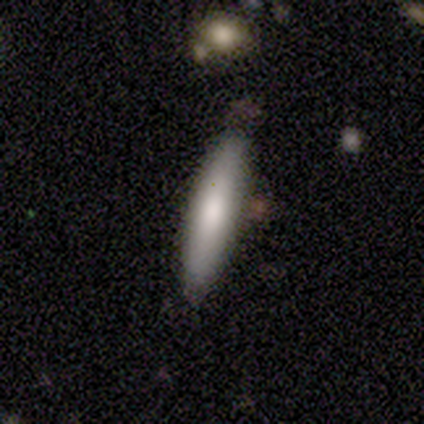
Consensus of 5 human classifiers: Volunteers were most divided on "smooth or featured": smooth: 60%, featured or disk: 40%, star or artifact: 0%. More confident: how rounded — cigar-shaped (100%); merging — none (80%).